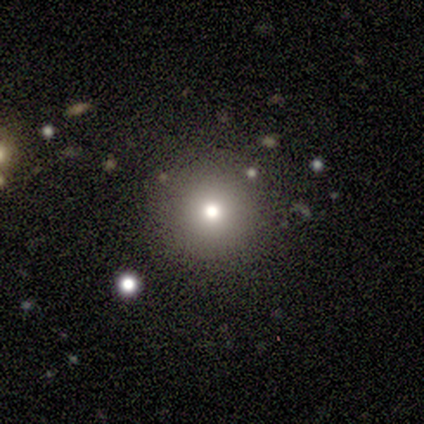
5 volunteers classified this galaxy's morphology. Volunteers were most divided on "smooth or featured": star or artifact: 60%, smooth: 40%, featured or disk: 0%.